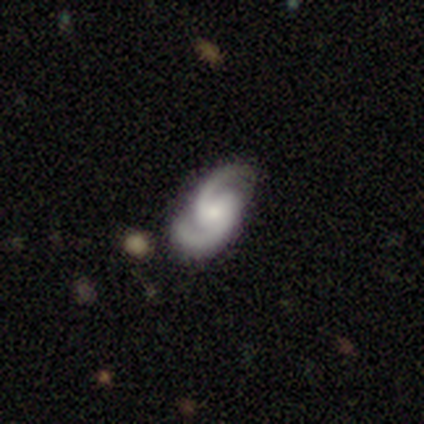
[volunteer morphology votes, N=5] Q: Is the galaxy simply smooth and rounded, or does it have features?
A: featured or disk — 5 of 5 (100%).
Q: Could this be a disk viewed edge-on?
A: no — 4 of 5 (80%).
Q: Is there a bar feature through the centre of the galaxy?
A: weak — 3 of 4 (75%).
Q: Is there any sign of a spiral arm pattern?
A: yes — 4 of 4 (100%).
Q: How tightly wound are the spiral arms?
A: medium — 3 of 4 (75%).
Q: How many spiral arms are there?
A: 2 — 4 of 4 (100%).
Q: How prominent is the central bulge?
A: small — 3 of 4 (75%).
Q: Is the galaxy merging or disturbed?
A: none — 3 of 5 (60%).